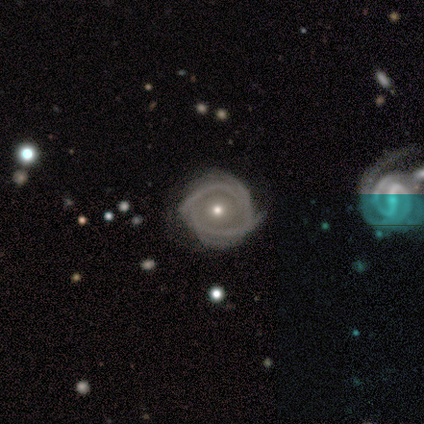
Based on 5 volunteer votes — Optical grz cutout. It shows a featured or disk galaxy (80%) with no bar (100%), 4 (50%) tight (75%) spiral arms (100%) and a small central bulge (75%). Merging: none (50%, tied with minor disturbance).